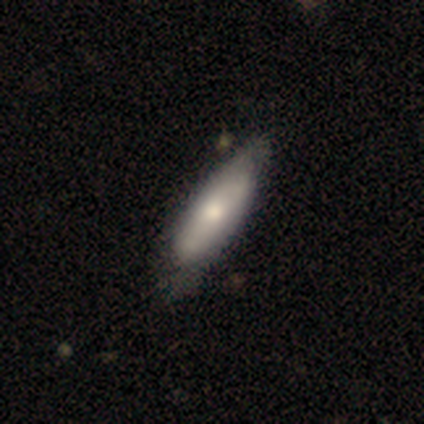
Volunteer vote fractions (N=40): Smooth or featured? 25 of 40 (62%) said smooth. How rounded? 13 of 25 (52%) said in between. Merging? 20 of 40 (50%) said none.